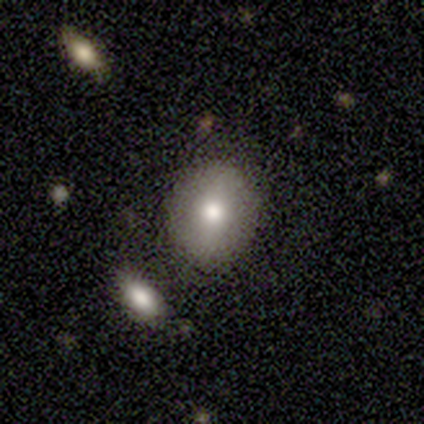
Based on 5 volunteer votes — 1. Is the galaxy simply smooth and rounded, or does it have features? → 60% smooth, 20% featured or disk, 20% star or artifact.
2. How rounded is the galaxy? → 100% round, 0% in between, 0% cigar-shaped.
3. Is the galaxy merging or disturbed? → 75% none, 25% minor disturbance, 0% major disturbance, 0% merger.